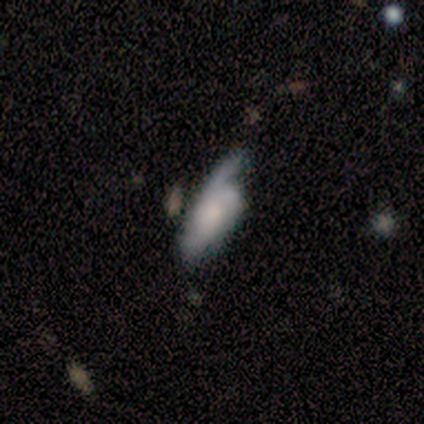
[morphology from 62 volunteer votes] Smooth or featured? 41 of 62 (66%) said featured or disk. Edge-on disk? 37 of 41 (90%) said no. Bar? 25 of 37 (68%) said no. Spiral arms? 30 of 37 (81%) said yes. Spiral winding? 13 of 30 (43%) said medium. Spiral arm count? 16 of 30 (53%) said 2. Bulge size? 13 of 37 (35%) said small. Merging? 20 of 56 (36%) said none.